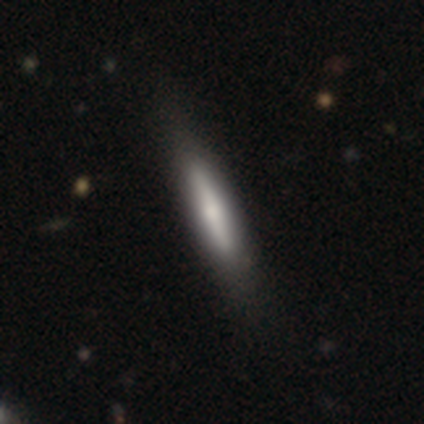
This is likely a smooth galaxy (61%). How rounded: clearly cigar-shaped (92%). Merging: marginally none (41%).